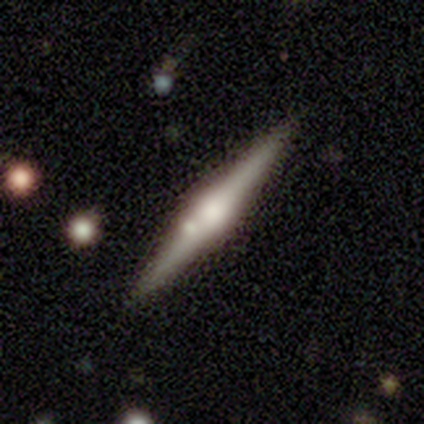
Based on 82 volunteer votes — Smooth or featured? featured or disk (84%)
Edge-on disk? yes (99%)
Edge-on bulge? rounded (88%)
Merging? none (85%)